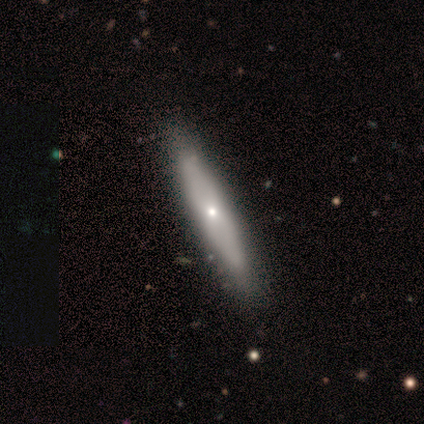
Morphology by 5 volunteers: type=smooth (80%); roundness=cigar-shaped (100%); merging=none (60%).